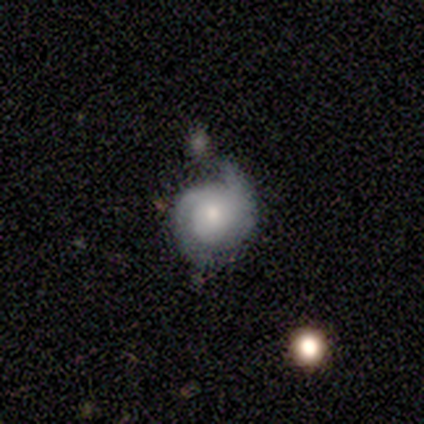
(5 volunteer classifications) featured or disk 80%, star or artifact 20%, smooth 0%. Down the decision tree: edge-on disk — no (100%); bar — no (75%); spiral arms — yes (75%); spiral arm count — 2 (100%); spiral winding — medium (67%); bulge size — small (75%); merging — none (75%).